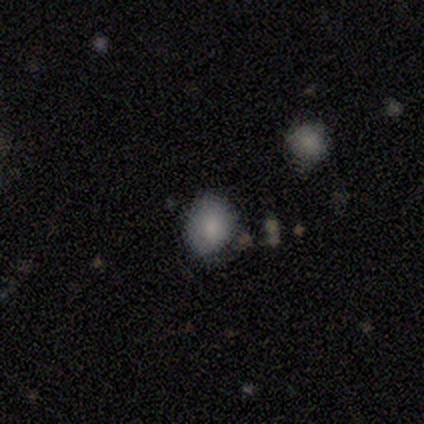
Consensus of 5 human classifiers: Volunteers were most divided on "how rounded" (2-way tie): round: 50%, in between: 50%, cigar-shaped: 0%. More confident: smooth or featured — smooth (80%); merging — none (75%).